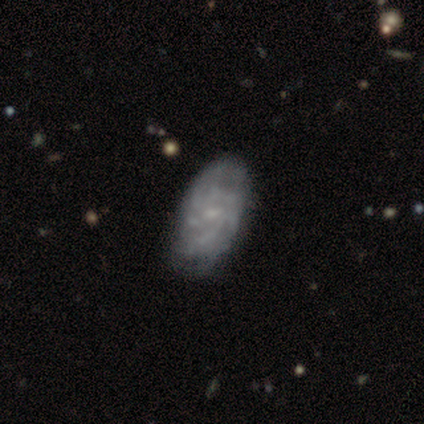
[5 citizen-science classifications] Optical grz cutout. It shows a featured or disk galaxy (100%) with no bar (60%), medium (100%) spiral arms (80%) and a small central bulge (80%). Merging: minor disturbance (60%).